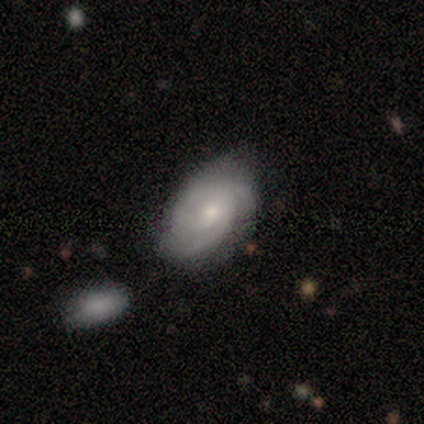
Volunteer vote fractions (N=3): Overall: featured or disk (100%). Edge-on disk: no (67%; yes 33%). Bar: no (100%). Spiral arms: yes (100%). Spiral arm count: 2 (50%, tied with 3). Spiral winding: tight (50%, tied with medium). Bulge size: moderate (100%). Merging: none (67%; merger 33%).